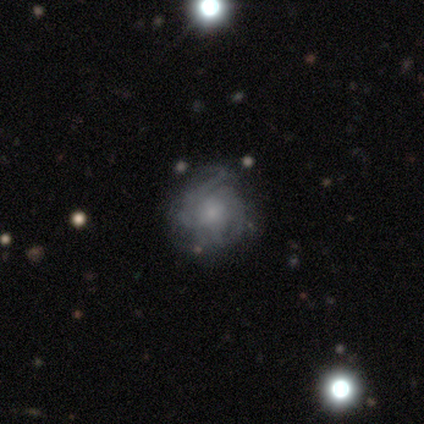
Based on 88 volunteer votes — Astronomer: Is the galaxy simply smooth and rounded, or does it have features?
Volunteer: featured or disk — 69%.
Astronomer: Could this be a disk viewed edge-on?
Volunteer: no — 97%.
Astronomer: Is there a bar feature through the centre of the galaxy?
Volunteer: no — 78%.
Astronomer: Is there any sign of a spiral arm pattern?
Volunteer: yes — 86%.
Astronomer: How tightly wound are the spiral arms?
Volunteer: tight — 55% (runner-up: medium, 31%).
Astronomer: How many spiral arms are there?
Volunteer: can't tell — 55%.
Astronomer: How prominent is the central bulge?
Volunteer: small — 63%.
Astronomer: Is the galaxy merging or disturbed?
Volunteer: none — 64%.